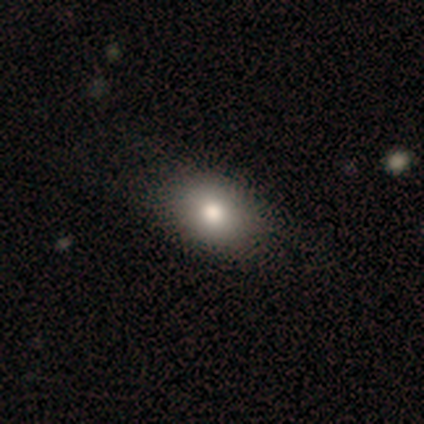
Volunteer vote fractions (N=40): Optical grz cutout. It shows a smooth galaxy with no disk features (85%) that is in between round and cigar-shaped (74%). Merging: none (49%).